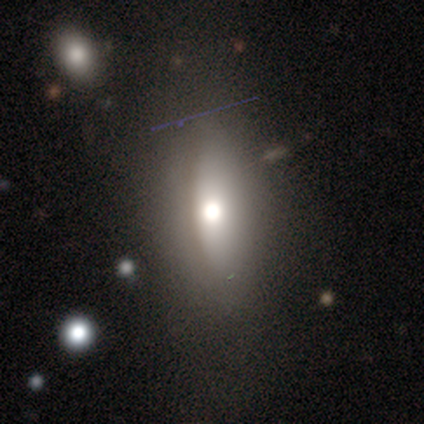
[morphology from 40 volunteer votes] smooth-or-featured: smooth: 65% | featured or disk: 20% | star or artifact: 15%
  how-rounded: in between: 62% | cigar-shaped: 23% | round: 15%
  merging: none: 56% | minor disturbance: 26% | major disturbance: 18% | merger: 0%